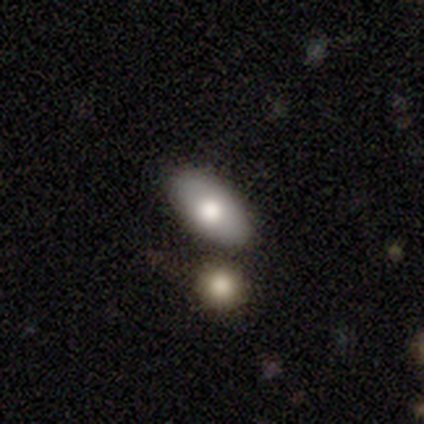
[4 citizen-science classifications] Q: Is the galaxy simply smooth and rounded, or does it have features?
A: smooth — 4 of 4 (100%).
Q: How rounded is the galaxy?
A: in between — 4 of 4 (100%).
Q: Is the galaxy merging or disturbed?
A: none — 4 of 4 (100%).